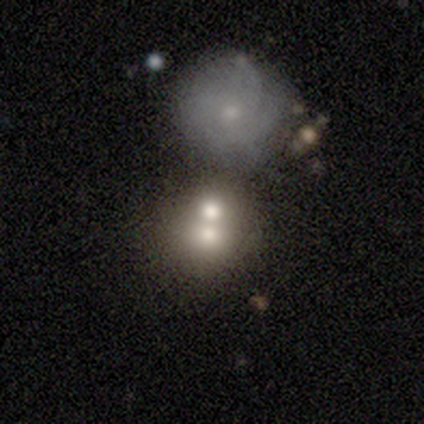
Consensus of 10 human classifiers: This is likely a smooth galaxy (70%). How rounded: clearly round (100%). Merging: possibly merger (56%).